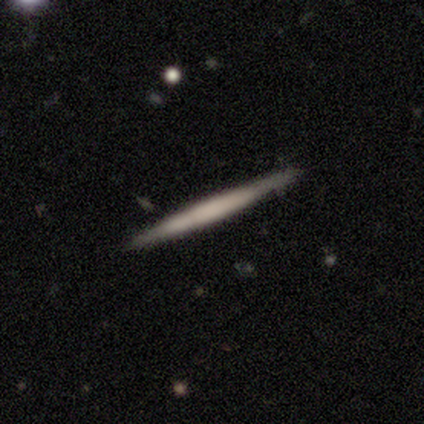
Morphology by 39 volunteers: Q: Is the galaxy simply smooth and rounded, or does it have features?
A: featured or disk — 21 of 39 (54%).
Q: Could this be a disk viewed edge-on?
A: yes — 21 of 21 (100%).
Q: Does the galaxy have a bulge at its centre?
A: none — 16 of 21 (76%).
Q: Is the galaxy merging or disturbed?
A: none — 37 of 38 (97%).